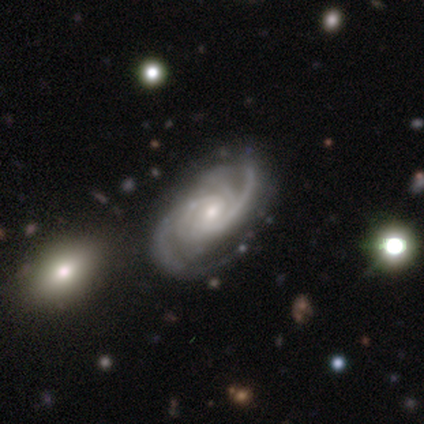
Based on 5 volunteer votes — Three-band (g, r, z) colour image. It shows a featured or disk galaxy (100%) with a weak bar (80%), 3 (80%) tight (60%) spiral arms (100%) and a small central bulge (80%). Merging: none (40%, tied with minor disturbance).